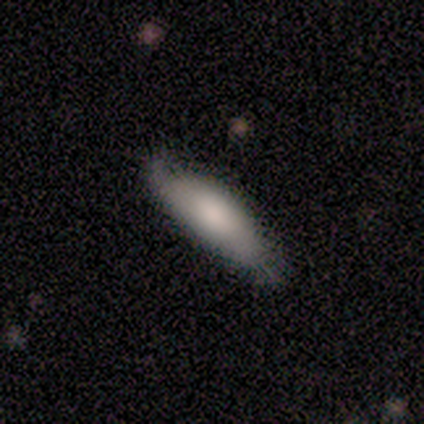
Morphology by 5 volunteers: A smooth galaxy with no disk features (80%) that is in between round and cigar-shaped (100%). Merging: none (60%).